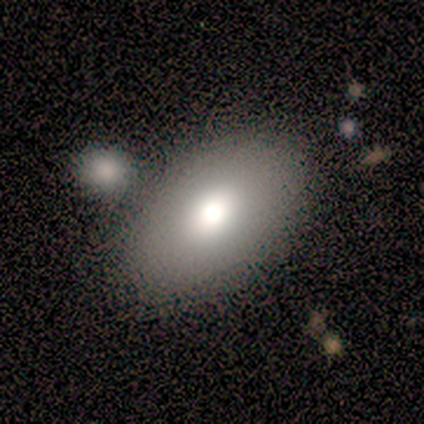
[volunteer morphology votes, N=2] A smooth galaxy with no disk features (100%) that is in between round and cigar-shaped (100%).

Vote fractions:
- Smooth or featured? smooth: 100% / featured or disk: 0% / star or artifact: 0%
- How rounded? in between: 100% / round: 0% / cigar-shaped: 0%
- Merging? minor disturbance: 50% (tied) / merger: 50% (tied) / none: 0% / major disturbance: 0%